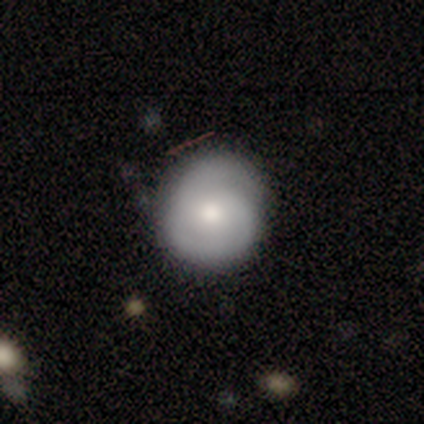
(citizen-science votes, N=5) Volunteers were most divided on "smooth or featured": featured or disk: 60%, smooth: 40%, star or artifact: 0%. More confident: bar — no (100%); spiral arms — yes (100%); spiral winding — tight (100%); spiral arm count — 2 (100%); bulge size — moderate (100%); merging — none (100%); edge-on disk — no (67%).